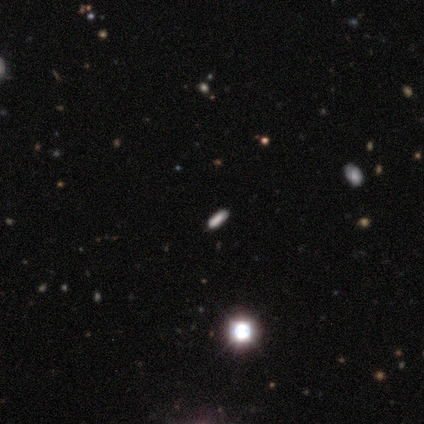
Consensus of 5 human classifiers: star or artifact 60%, smooth 40%, featured or disk 0%.